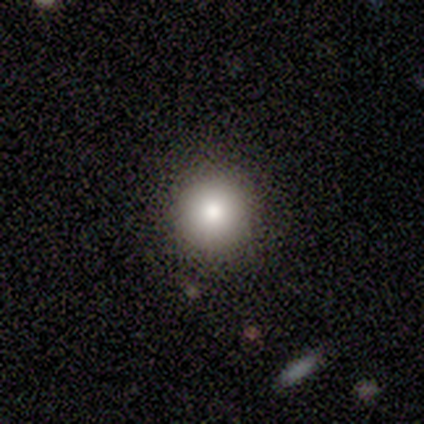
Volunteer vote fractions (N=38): Overall: smooth (76%). How rounded: round (97%). Merging: none (94%).